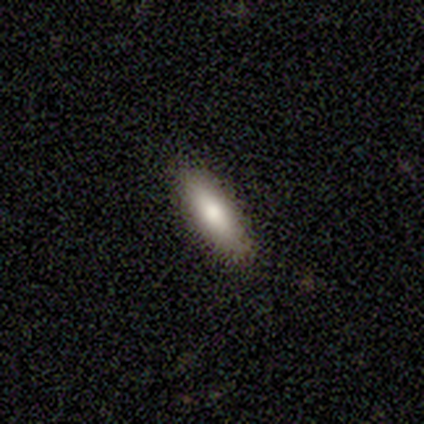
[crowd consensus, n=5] This appears to be a smooth galaxy with no disk features (60%) that is in between round and cigar-shaped (67%). Merging: none (100%).